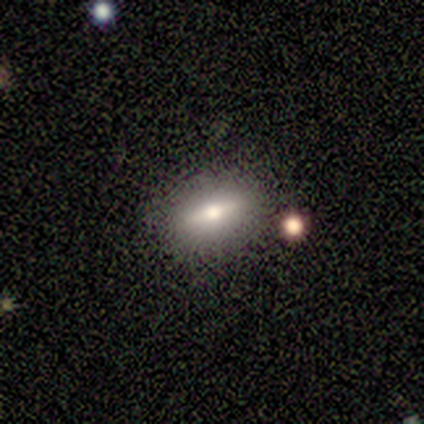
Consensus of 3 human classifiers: Morphology: type=smooth (67%); roundness=in between (50%, tied with cigar-shaped); merging=none (67%).